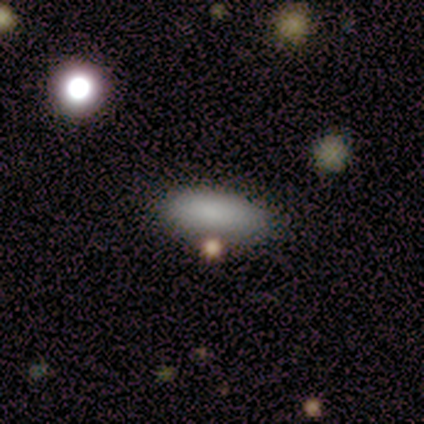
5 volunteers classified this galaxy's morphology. type=smooth (80%); roundness=cigar-shaped (75%); merging=none (75%).